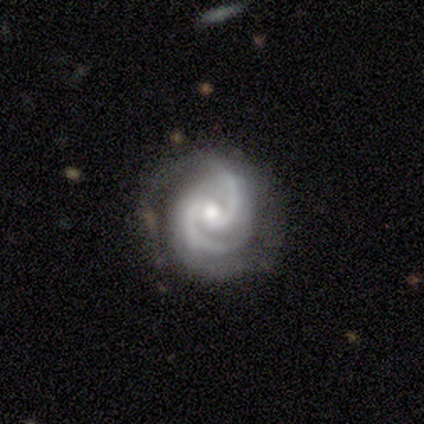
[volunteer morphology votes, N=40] A featured or disk galaxy (95%) with no bar (55%), 2 (84%) tight (50%) spiral arms (100%) and a moderate central bulge (55%). Merging: none (77%).